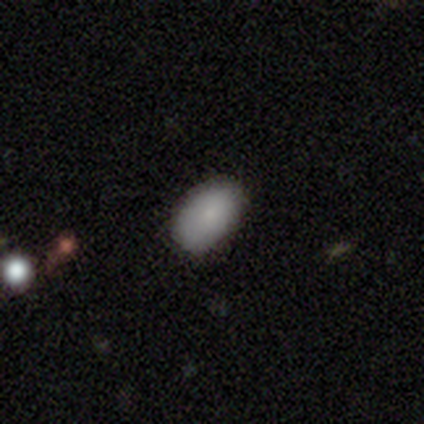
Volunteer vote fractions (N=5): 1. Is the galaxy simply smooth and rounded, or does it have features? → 100% smooth, 0% featured or disk, 0% star or artifact.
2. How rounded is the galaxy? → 100% in between, 0% round, 0% cigar-shaped.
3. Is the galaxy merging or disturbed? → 60% none, 40% minor disturbance, 0% major disturbance, 0% merger.